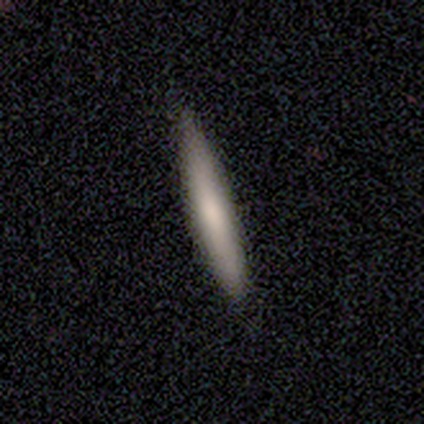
A smooth galaxy with no disk features (67%) that is cigar-shaped (100%). Merging: none (100%).